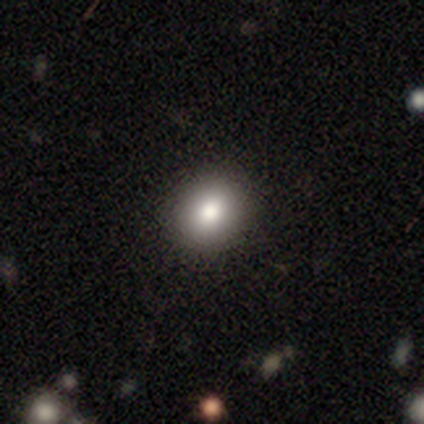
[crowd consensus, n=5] This is clearly a smooth galaxy (80%). How rounded: possibly round (50%, tied with in between). Merging: clearly none (100%).